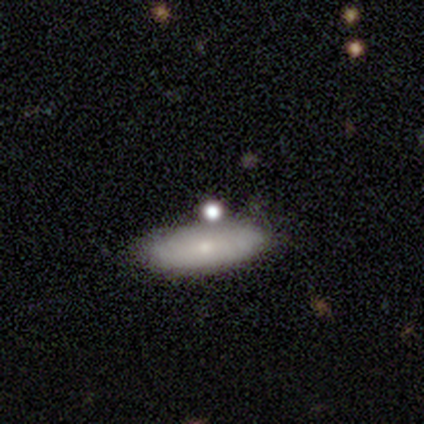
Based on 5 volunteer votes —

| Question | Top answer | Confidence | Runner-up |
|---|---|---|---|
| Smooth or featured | smooth | 80% | star or artifact (20%) |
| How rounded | in between | 75% | cigar-shaped (25%) |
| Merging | none | 75% | major disturbance (25%) |